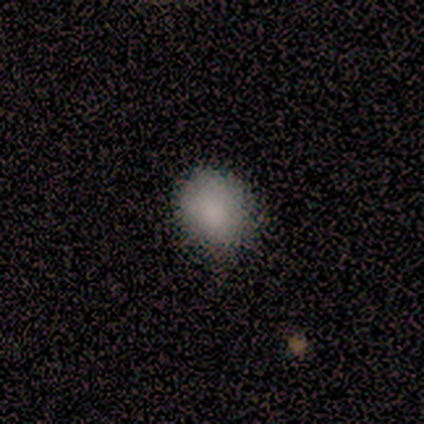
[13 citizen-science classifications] Smooth or featured? smooth (100%)
How rounded? round (69%)
Merging? none (85%)